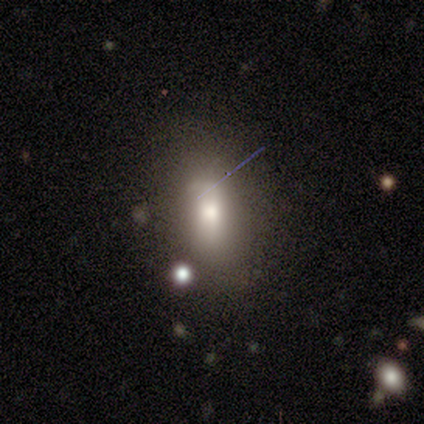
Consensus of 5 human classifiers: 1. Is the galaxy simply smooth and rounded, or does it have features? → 60% smooth, 20% featured or disk, 20% star or artifact.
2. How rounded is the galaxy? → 67% in between, 33% cigar-shaped, 0% round.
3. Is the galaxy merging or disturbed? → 50% none, 25% minor disturbance, 25% major disturbance, 0% merger.